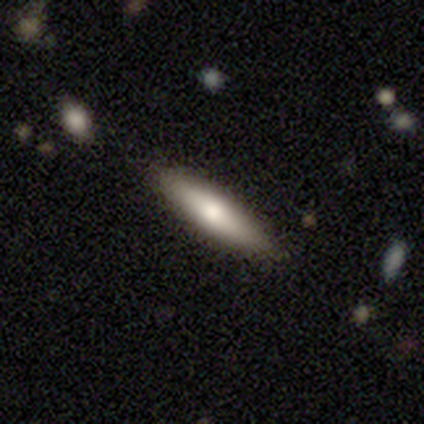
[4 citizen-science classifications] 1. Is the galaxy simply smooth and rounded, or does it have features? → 75% smooth, 25% featured or disk, 0% star or artifact.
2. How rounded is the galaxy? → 100% cigar-shaped, 0% round, 0% in between.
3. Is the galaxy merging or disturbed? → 50% none (tied), 50% minor disturbance (tied), 0% major disturbance, 0% merger.